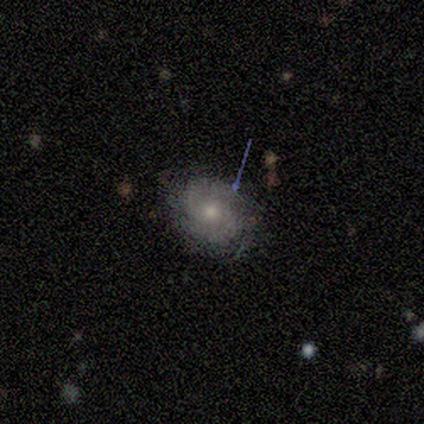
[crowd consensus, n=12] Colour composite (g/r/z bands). It shows a smooth galaxy with no disk features (50%, tied with featured or disk) that is round (50%, tied with in between). Merging: none (67%).